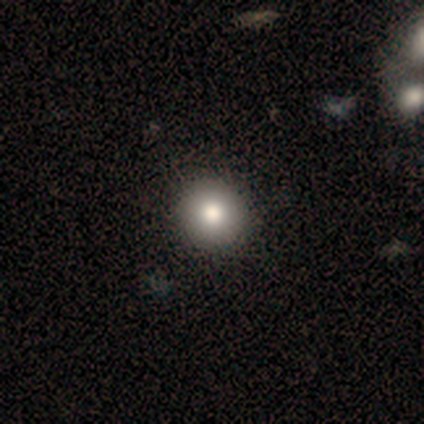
Smooth or featured?
  - smooth: 76% *
  - featured or disk: 15%
  - star or artifact: 10%
How rounded?
  - round: 97% *
  - in between: 3%
  - cigar-shaped: 0%
Merging?
  - none: 54% *
  - minor disturbance: 3%
  - major disturbance: 0%
  - merger: 0%